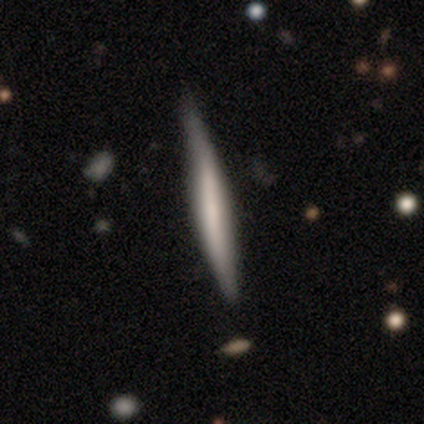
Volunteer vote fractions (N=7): Morphology: type=featured or disk (57%); edge-on=yes (100%); edge-on bulge=none (50%, tied with rounded); merging=none (71%).